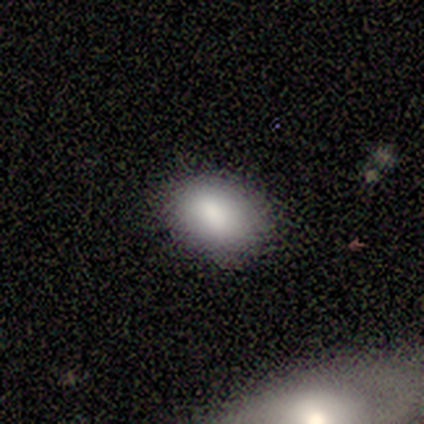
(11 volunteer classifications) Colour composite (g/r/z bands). It shows a smooth galaxy with no disk features (100%) that is in between round and cigar-shaped (73%). Merging: none (91%).